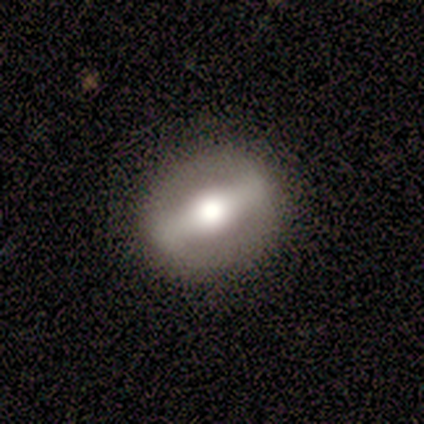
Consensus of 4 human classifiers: A featured or disk galaxy (75%) with a strong bar (100%), no spiral arms (100%) and a large central bulge (100%).

Vote fractions:
- Smooth or featured? featured or disk: 75% / smooth: 25% / star or artifact: 0%
- Edge-on disk? no: 67% / yes: 33%
- Bar? strong: 100% / weak: 0% / no: 0%
- Spiral arms? no: 100% / yes: 0%
- Bulge size? large: 100% / dominant: 0% / moderate: 0% / small: 0% / none: 0%
- Merging? none: 100% / minor disturbance: 0% / major disturbance: 0% / merger: 0%